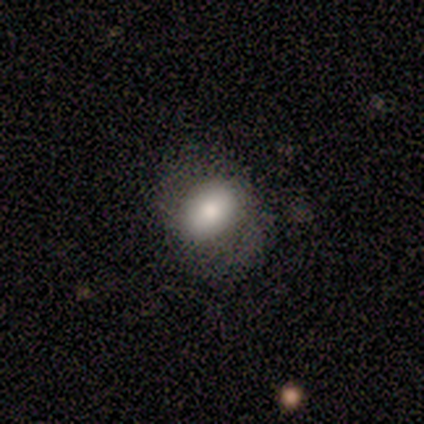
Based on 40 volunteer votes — Smooth or featured? 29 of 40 (72%) said smooth. How rounded? 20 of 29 (69%) said in between. Merging? 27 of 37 (73%) said none.